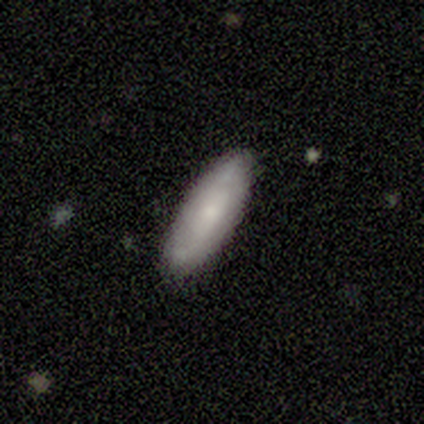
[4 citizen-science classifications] Overall: smooth (50%; featured or disk 25%). How rounded: in between (100%). Merging: minor disturbance (67%; none 33%).